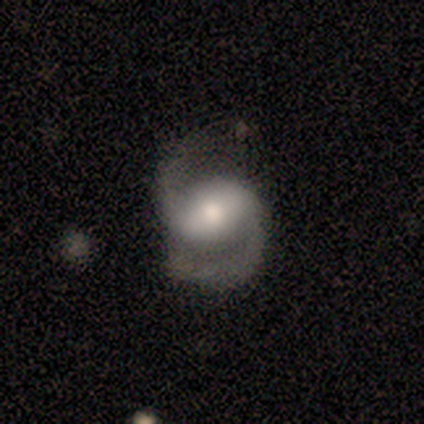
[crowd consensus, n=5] Smooth or featured? 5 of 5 (100%) said featured or disk. Edge-on disk? 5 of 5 (100%) said no. Bar? 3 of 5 (60%) said weak. Spiral arms? 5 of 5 (100%) said yes. Spiral winding? 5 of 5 (100%) said medium. Spiral arm count? 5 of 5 (100%) said 2. Bulge size? 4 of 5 (80%) said moderate. Merging? 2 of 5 (40%, tied with minor disturbance) said none.